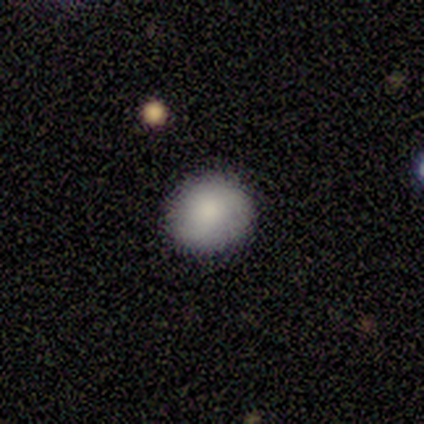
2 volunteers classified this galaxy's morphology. type=smooth (100%); roundness=round (100%); merging=none (100%).